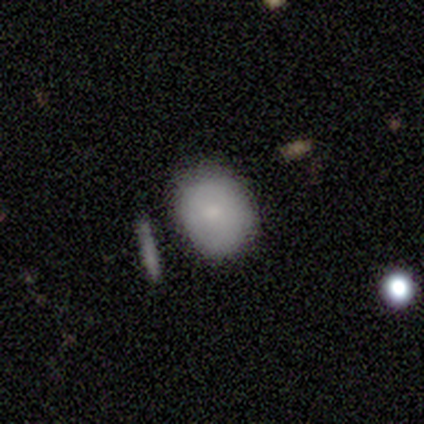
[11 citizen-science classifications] Smooth or featured? 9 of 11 (82%) said smooth. How rounded? 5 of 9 (56%) said round. Merging? 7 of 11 (64%) said none.